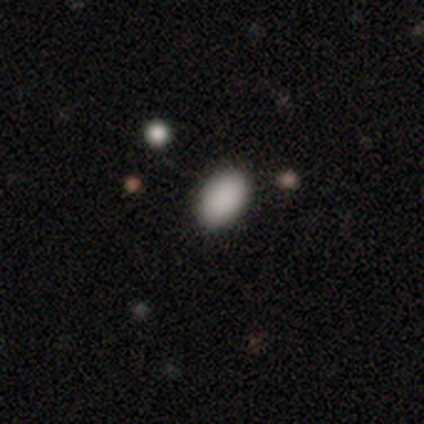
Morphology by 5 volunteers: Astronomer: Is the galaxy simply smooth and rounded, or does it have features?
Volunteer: smooth — 100%.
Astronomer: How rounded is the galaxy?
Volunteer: in between — 100%.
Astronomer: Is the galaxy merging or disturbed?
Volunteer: none — 100%.